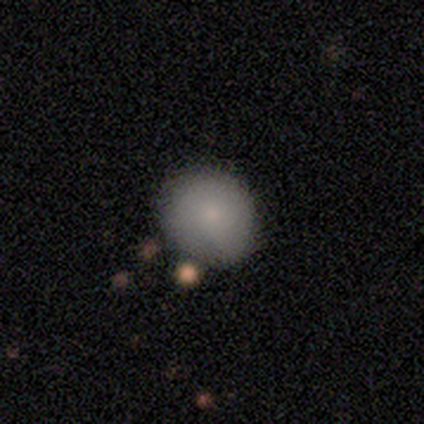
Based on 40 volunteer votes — Smooth or featured?
  - smooth: 88% *
  - featured or disk: 12%
  - star or artifact: 0%
How rounded?
  - round: 80% *
  - in between: 20%
  - cigar-shaped: 0%
Merging?
  - none: 62% *
  - minor disturbance: 10%
  - merger: 8%
  - major disturbance: 0%